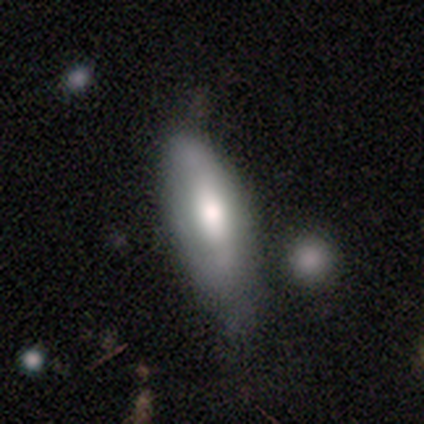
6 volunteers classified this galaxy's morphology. Smooth or featured: featured or disk — 83% (smooth — 17%)
Edge-on disk: no — 60% (yes — 40%)
Bar: strong — 33% (tied with weak — 33%; no — 33%)
Spiral arms: no — 67% (yes — 33%)
Bulge size: moderate — 67% (dominant — 33%)
Merging: none — 83% (minor disturbance — 17%)